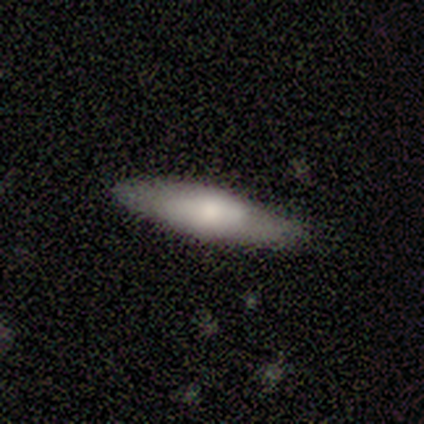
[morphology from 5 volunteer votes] A smooth galaxy with no disk features (100%) that is cigar-shaped (80%).

Vote fractions:
- Smooth or featured? smooth: 100% / featured or disk: 0% / star or artifact: 0%
- How rounded? cigar-shaped: 80% / in between: 20% / round: 0%
- Merging? none: 80% / minor disturbance: 20% / major disturbance: 0% / merger: 0%